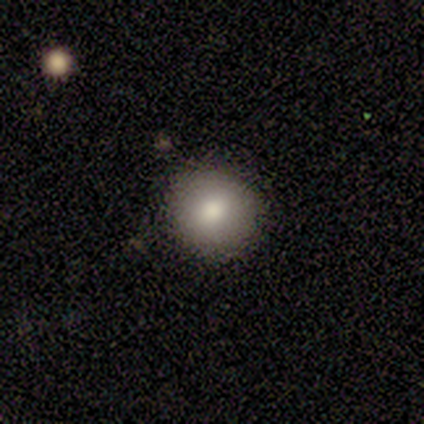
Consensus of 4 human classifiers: Q: Smooth or featured?
A: smooth (100%)
Q: How rounded?
A: round (50%); runner-up: in between (25%)
Q: Merging?
A: none (100%)